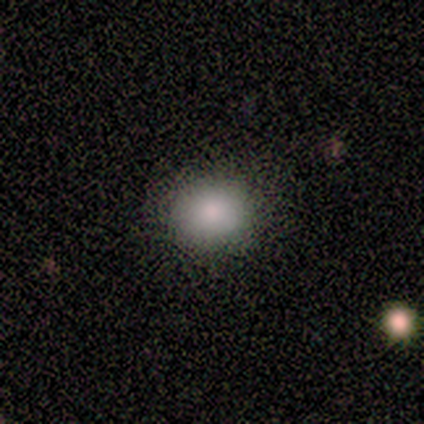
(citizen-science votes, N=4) This appears to be a smooth galaxy with no disk features (75%) that is round (100%). Merging: none (100%).